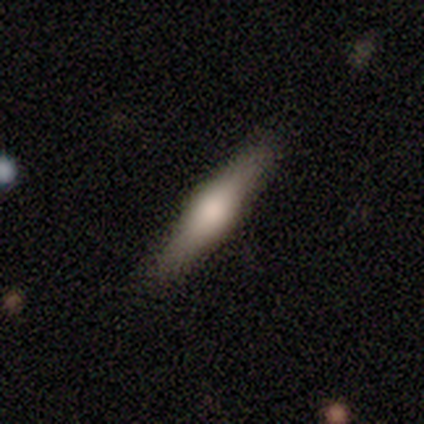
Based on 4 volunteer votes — Volunteers were most divided on "smooth or featured" (2-way tie): smooth: 50%, featured or disk: 50%, star or artifact: 0%. More confident: how rounded — cigar-shaped (100%); merging — none (100%).